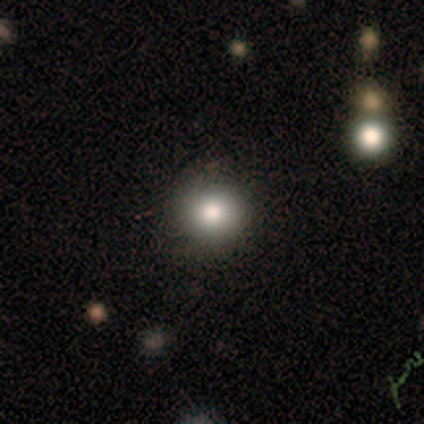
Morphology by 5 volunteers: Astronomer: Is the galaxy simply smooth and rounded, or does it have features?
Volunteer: smooth — 100%.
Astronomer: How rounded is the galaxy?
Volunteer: round — 100%.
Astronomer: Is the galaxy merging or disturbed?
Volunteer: none — 80%.